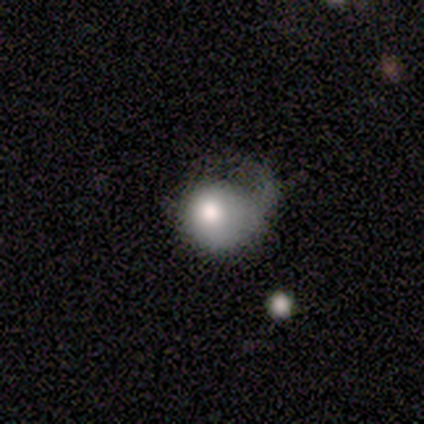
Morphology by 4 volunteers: This appears to be a smooth galaxy with no disk features (50%, tied with featured or disk) that is round (50%, tied with in between). Merging: major disturbance (75%).